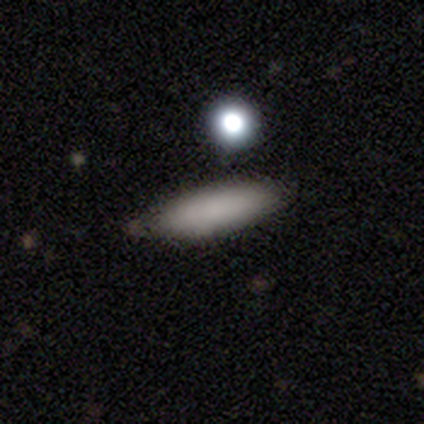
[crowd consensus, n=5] Smooth or featured: smooth — 100%
How rounded: cigar-shaped — 60% (in between — 40%)
Merging: none — 100%